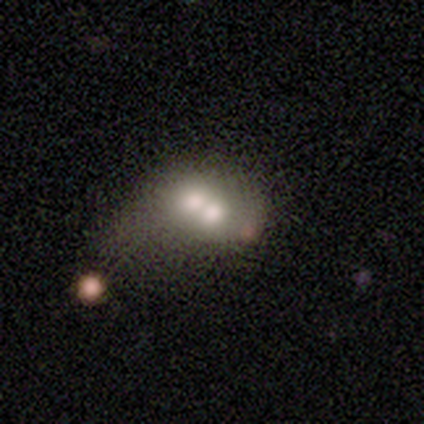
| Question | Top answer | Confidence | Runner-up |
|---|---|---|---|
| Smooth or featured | smooth | 100% | — |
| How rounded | round | 60% | in between (40%) |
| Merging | merger | 80% | major disturbance (20%) |